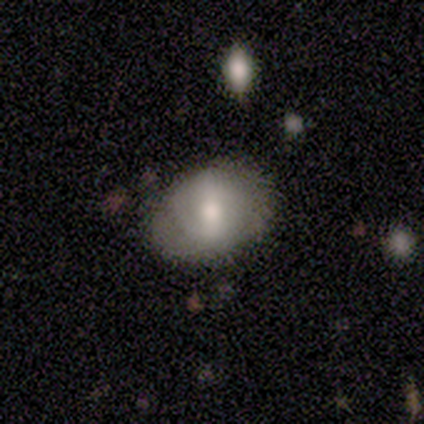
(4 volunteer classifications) This appears to be a featured or disk galaxy (75%) with a strong bar (33%, tied with weak and no), no spiral arms (67%) and a moderate central bulge (100%). Merging: none (100%).